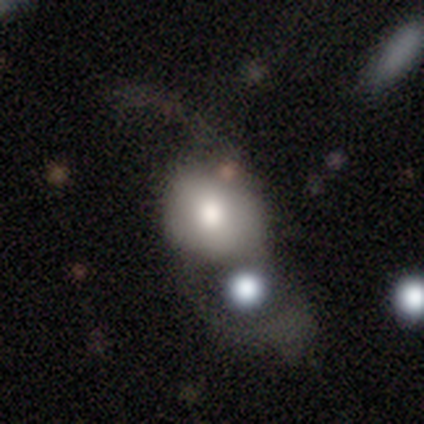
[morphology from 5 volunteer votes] Smooth or featured: featured or disk — 80% (smooth — 20%)
Edge-on disk: no — 100%
Bar: no — 100%
Spiral arms: no — 100%
Bulge size: moderate — 75% (small — 25%)
Merging: major disturbance — 60% (none — 20%)